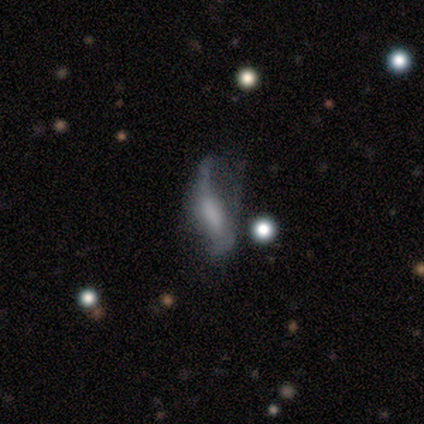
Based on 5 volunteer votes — A featured or disk galaxy (100%) with no bar (67%), 2 (67%) loose (100%) spiral arms (100%) and a large central bulge (33%, tied with moderate and none).

Vote fractions:
- Smooth or featured? featured or disk: 100% / smooth: 0% / star or artifact: 0%
- Edge-on disk? no: 60% / yes: 40%
- Bar? no: 67% / weak: 33% / strong: 0%
- Spiral arms? yes: 100% / no: 0%
- Spiral winding? loose: 100% / tight: 0% / medium: 0%
- Spiral arm count? 2: 67% / 1: 33% / 3: 0% / 4: 0% / more than 4: 0% / can't tell: 0%
- Bulge size? large: 33% (tied) / moderate: 33% (tied) / none: 33% (tied) / dominant: 0% / small: 0%
- Merging? major disturbance: 80% / none: 20% / minor disturbance: 0% / merger: 0%